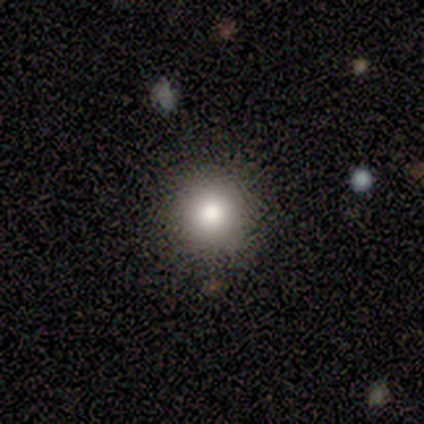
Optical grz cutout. It shows a smooth galaxy with no disk features (75%) that is round (100%). Merging: none (100%).